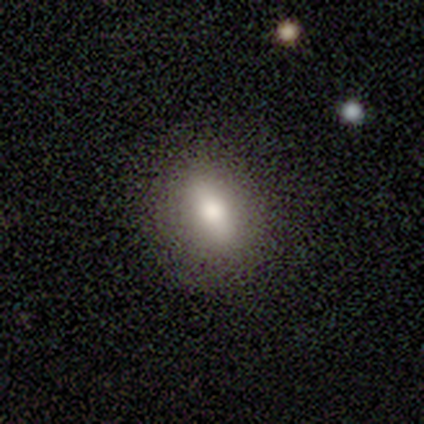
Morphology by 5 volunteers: This is clearly a smooth galaxy (80%). How rounded: possibly round (50%, tied with in between). Merging: clearly none (100%).